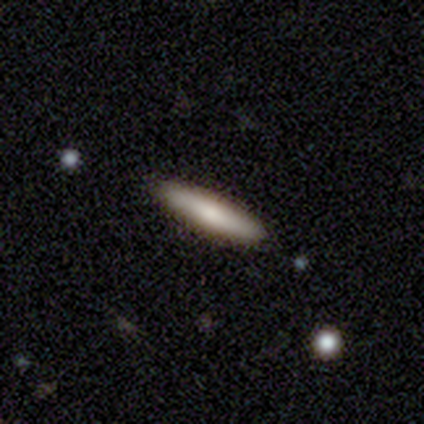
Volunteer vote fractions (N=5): Smooth or featured?
  - smooth: 60% *
  - featured or disk: 20%
  - star or artifact: 20%
How rounded?
  - cigar-shaped: 100% *
  - round: 0%
  - in between: 0%
Merging?
  - none: 100% *
  - minor disturbance: 0%
  - major disturbance: 0%
  - merger: 0%